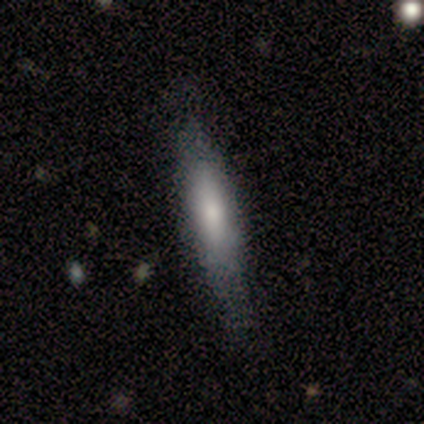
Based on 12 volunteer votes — Smooth or featured? smooth (67%)
How rounded? cigar-shaped (100%)
Merging? minor disturbance (55%)